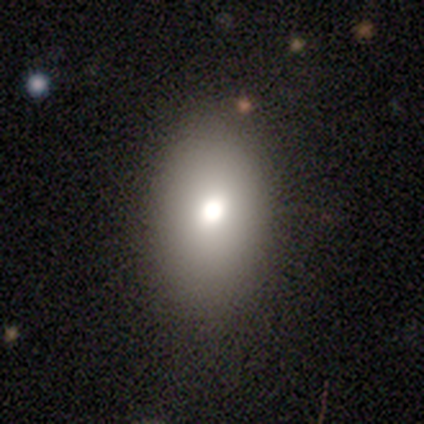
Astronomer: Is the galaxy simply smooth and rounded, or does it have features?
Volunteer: smooth — 75%.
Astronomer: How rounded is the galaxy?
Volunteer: in between — 86%.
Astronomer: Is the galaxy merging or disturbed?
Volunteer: none — 83%.